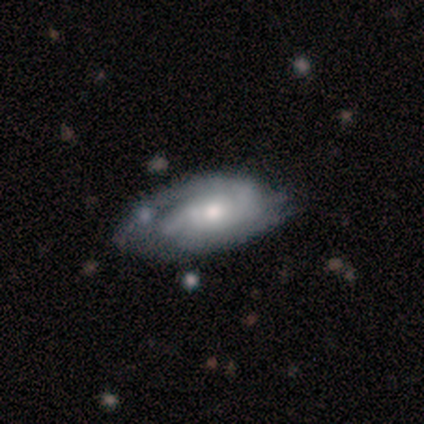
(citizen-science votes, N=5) Morphology: type=featured or disk (80%); edge-on=no (100%); bar=no (75%); spiral arms=yes (75%); winding=tight (67%); arm count=2 (67%); bulge=moderate (75%); merging=none (80%).